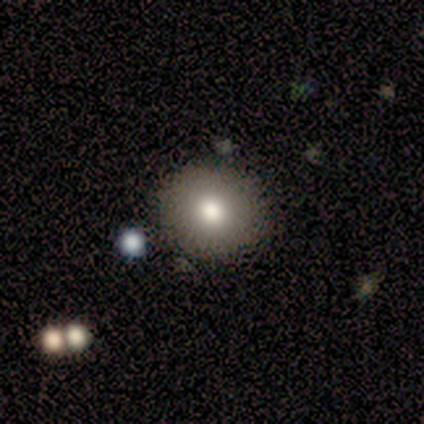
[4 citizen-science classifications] Smooth or featured? 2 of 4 (50%, tied with featured or disk) said smooth. How rounded? 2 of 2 (100%) said round. Merging? 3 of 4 (75%) said none.